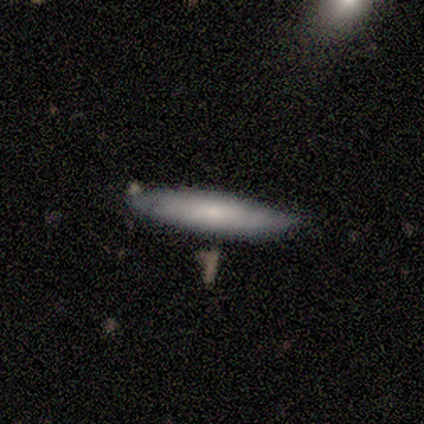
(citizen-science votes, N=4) smooth 75%, featured or disk 25%, star or artifact 0%. Down the decision tree: how rounded — cigar-shaped (67%); merging — none (100%).